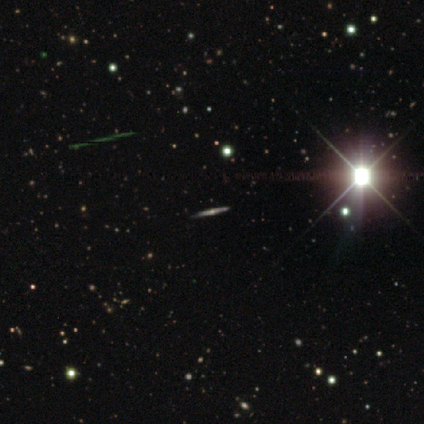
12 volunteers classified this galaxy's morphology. Smooth or featured? featured or disk (58%)
Edge-on disk? yes (100%)
Edge-on bulge? rounded (100%)
Merging? none (88%)